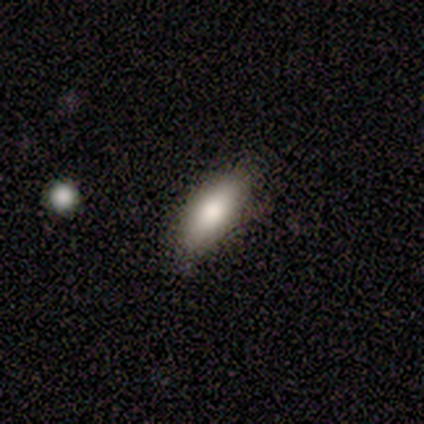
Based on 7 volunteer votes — This appears to be a smooth galaxy with no disk features (86%) that is in between round and cigar-shaped (100%). Merging: none (83%).